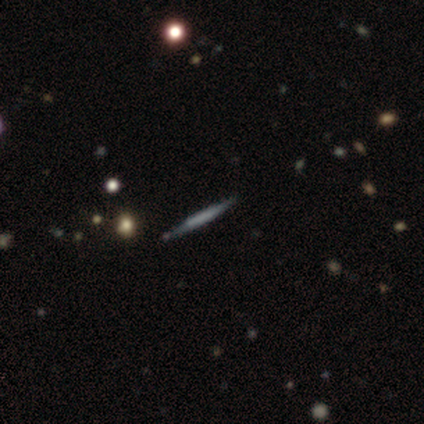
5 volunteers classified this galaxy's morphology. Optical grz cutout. It shows a featured or disk galaxy (80%) viewed edge-on (100%) with a boxy central bulge (50%). Merging: none (100%).